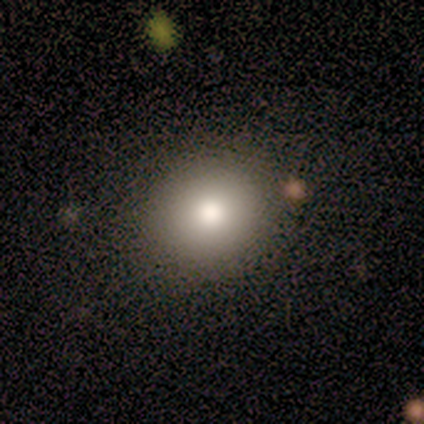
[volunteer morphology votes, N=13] Overall: smooth (77%). How rounded: round (70%; in between 30%). Merging: none (82%).